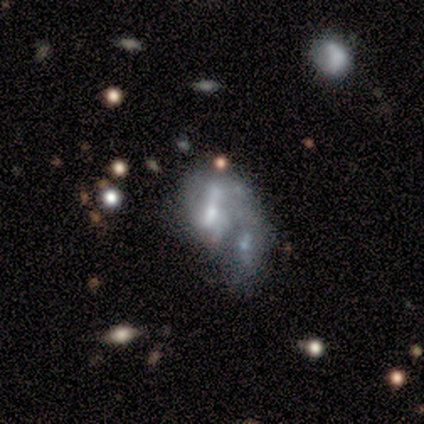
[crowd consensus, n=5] Volunteers were most divided on "smooth or featured" (2-way tie): smooth: 40%, featured or disk: 40%, star or artifact: 20%. More confident: how rounded — in between (100%); merging — merger (75%).